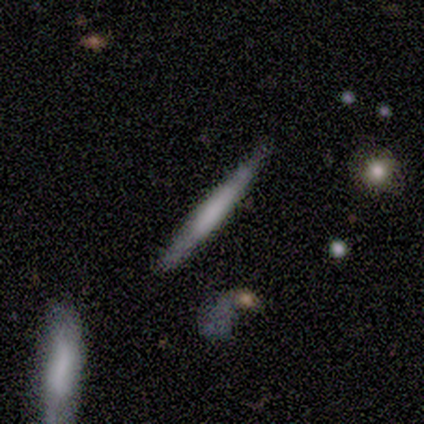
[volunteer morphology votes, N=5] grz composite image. It shows a smooth galaxy with no disk features (80%) that is cigar-shaped (100%). Merging: none (100%).